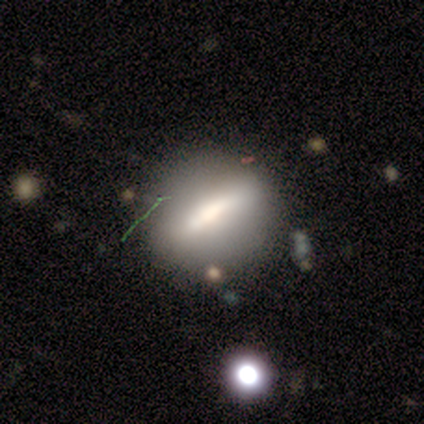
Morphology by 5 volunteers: smooth-or-featured: featured or disk: 60% | smooth: 20% | star or artifact: 20%
  disk-edge-on: yes: 100% | no: 0%
    edge-on-bulge: boxy: 33% (tied) | none: 33% (tied) | rounded: 33% (tied)
  merging: none: 75% | major disturbance: 25% | minor disturbance: 0% | merger: 0%